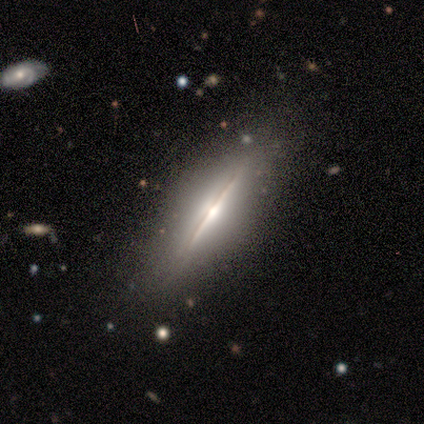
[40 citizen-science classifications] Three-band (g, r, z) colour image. It shows a featured or disk galaxy (90%) viewed edge-on (94%) with a rounded central bulge (76%). Merging: none (88%).